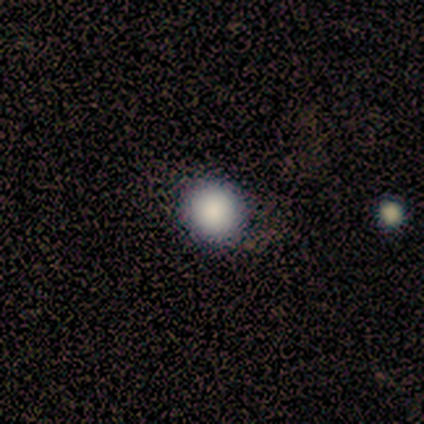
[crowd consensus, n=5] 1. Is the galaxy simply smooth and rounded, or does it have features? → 80% smooth, 20% star or artifact, 0% featured or disk.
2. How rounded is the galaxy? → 100% round, 0% in between, 0% cigar-shaped.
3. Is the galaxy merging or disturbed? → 100% none, 0% minor disturbance, 0% major disturbance, 0% merger.